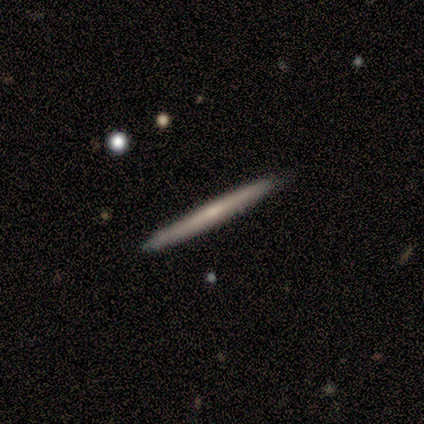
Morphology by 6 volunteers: Q: Smooth or featured?
A: featured or disk (83%); runner-up: smooth (17%)
Q: Edge-on disk?
A: yes (100%)
Q: Edge-on bulge?
A: none (100%)
Q: Merging?
A: none (100%)